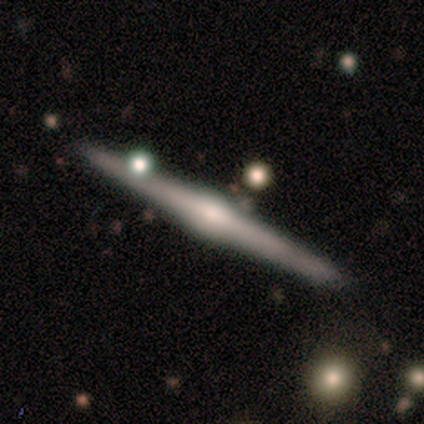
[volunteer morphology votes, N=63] This is clearly a featured or disk galaxy (94%). It is clearly viewed edge-on (100%). Edge-on bulge: clearly rounded (93%). Merging: clearly none (80%).